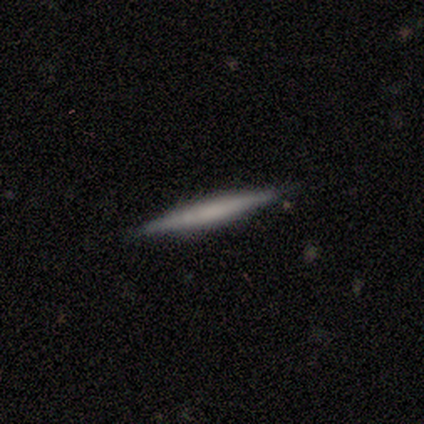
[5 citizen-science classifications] Smooth or featured? smooth (40%, tied with featured or disk)
How rounded? cigar-shaped (100%)
Merging? none (100%)